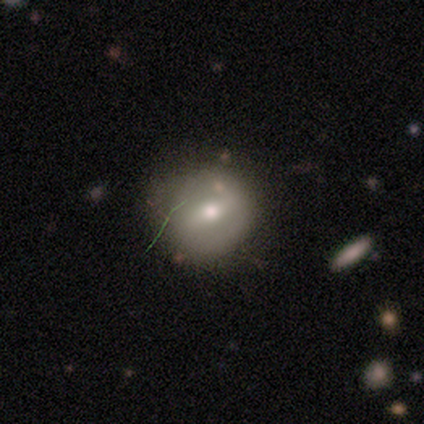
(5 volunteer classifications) Smooth or featured: smooth — 40% (tied with featured or disk — 40%)
How rounded: round — 100%
Merging: none — 50% (tied with minor disturbance — 50%)